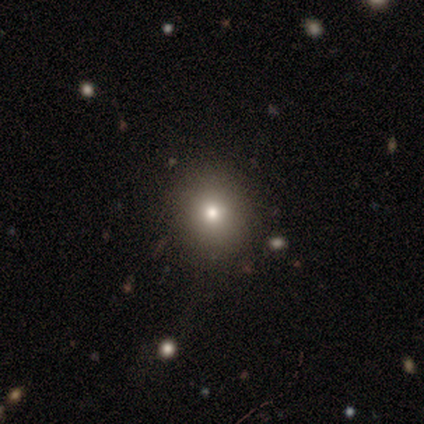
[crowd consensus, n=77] This is likely a smooth galaxy (77%). How rounded: clearly round (81%). Merging: marginally none (40%).